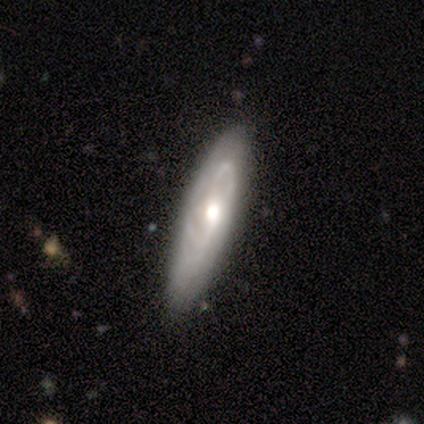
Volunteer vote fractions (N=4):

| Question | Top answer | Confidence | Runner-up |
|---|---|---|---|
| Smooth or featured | featured or disk | 75% | smooth (25%) |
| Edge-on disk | no | 100% | — |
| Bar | strong | 67% | no (33%) |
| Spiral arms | yes | 67% | no (33%) |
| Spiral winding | medium | 100% | — |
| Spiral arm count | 2 | 50% | tied: 3 (50%) |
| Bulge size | moderate | 67% | small (33%) |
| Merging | none | 75% | minor disturbance (25%) |